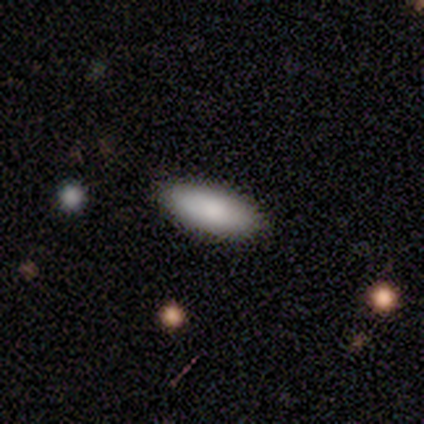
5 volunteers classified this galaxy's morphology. Overall: smooth (100%). How rounded: in between (100%). Merging: none (80%).